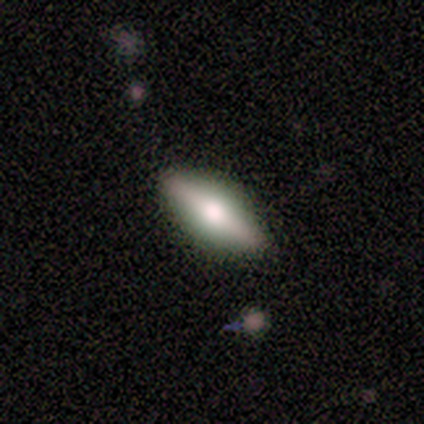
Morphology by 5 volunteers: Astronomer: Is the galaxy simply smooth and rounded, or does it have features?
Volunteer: featured or disk — 80%.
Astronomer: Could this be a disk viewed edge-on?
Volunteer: yes — 100%.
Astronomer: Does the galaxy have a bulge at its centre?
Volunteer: rounded — 75%.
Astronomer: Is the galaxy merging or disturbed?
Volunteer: none — 100%.